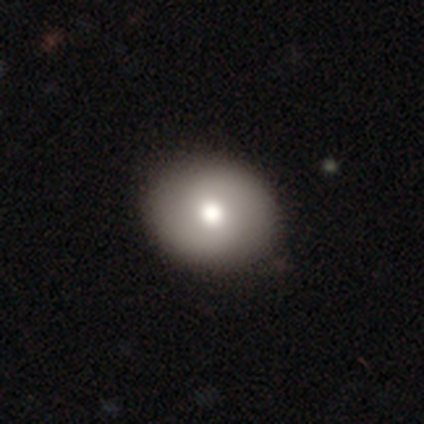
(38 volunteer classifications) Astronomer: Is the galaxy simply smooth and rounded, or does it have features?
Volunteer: smooth — 74%.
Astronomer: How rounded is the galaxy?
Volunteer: round — 61% (runner-up: in between, 36%).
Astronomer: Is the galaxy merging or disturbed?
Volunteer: none — 57%.